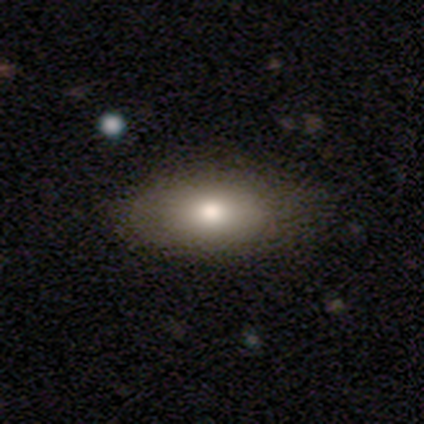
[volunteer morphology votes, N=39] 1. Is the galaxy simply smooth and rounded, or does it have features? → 82% smooth, 10% star or artifact, 8% featured or disk.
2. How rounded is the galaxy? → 91% in between, 9% round, 0% cigar-shaped.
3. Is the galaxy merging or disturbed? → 63% none, 9% minor disturbance, 6% major disturbance, 3% merger.